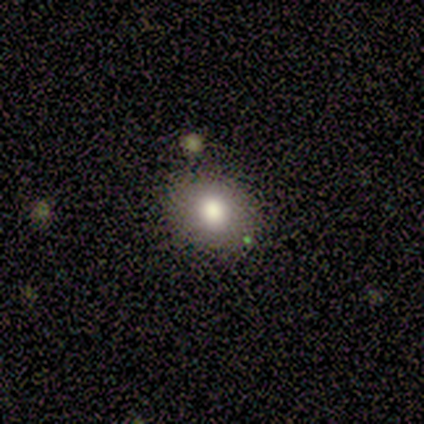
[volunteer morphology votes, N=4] A smooth galaxy with no disk features (50%) that is round (50%, tied with in between). Merging: none (100%).